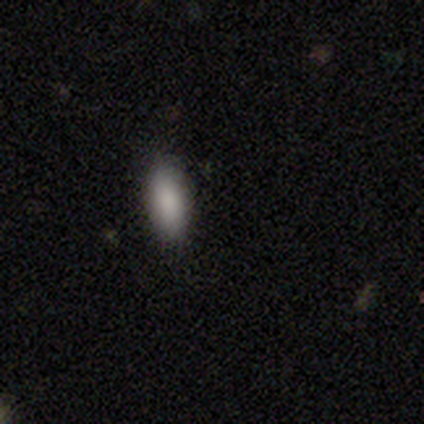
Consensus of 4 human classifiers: This is likely a smooth galaxy (75%). How rounded: clearly in between (100%). Merging: clearly none (100%).